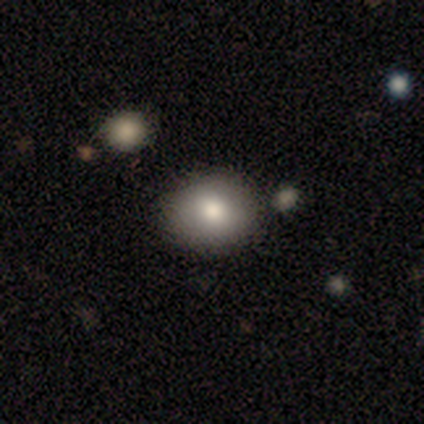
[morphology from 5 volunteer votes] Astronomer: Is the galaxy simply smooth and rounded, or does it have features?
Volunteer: smooth — 60%.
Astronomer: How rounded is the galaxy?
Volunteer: in between — 67%.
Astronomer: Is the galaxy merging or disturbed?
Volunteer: none — 50%, tied with minor disturbance at 50%.